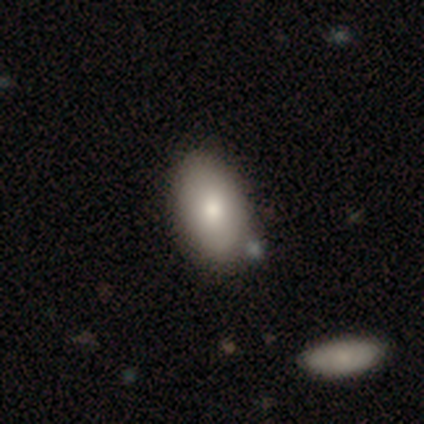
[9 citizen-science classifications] smooth_or_featured: smooth (p=0.67) [alt: featured or disk p=0.22]
how_rounded: in between (p=1.00)
merging: none (p=0.88) [alt: minor disturbance p=0.12]